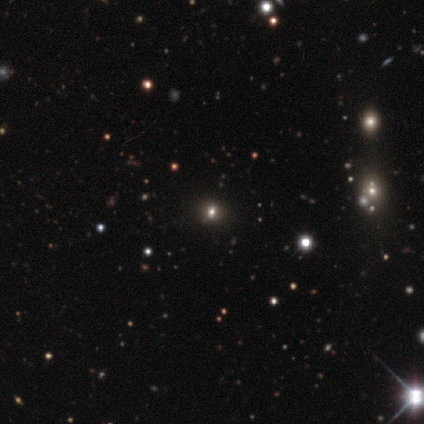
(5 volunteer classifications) Smooth or featured: star or artifact — 60% (smooth — 40%)